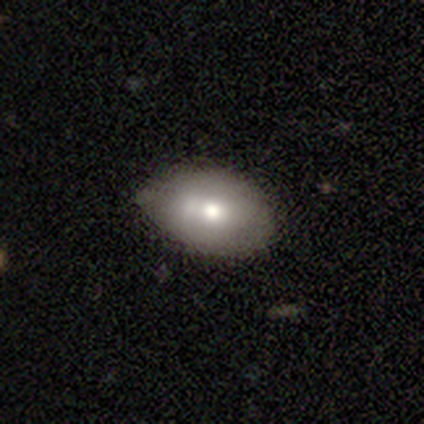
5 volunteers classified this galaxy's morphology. smooth-or-featured: smooth: 100% | featured or disk: 0% | star or artifact: 0%
  how-rounded: in between: 100% | round: 0% | cigar-shaped: 0%
  merging: minor disturbance: 60% | none: 40% | major disturbance: 0% | merger: 0%